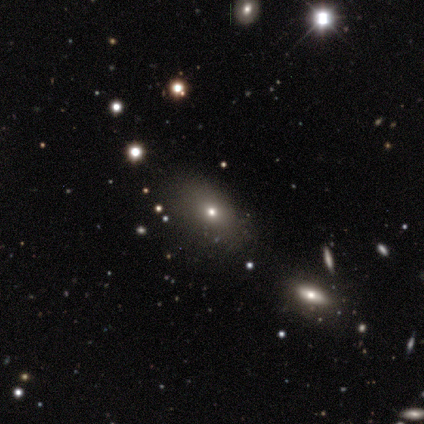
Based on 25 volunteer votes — Smooth or featured? 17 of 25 (68%) said smooth. How rounded? 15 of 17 (88%) said in between. Merging? 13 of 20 (65%) said none.